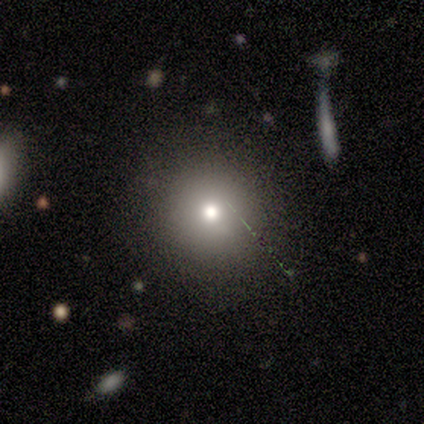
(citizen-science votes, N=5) smooth-or-featured: smooth: 80% | featured or disk: 20% | star or artifact: 0%
  how-rounded: round: 100% | in between: 0% | cigar-shaped: 0%
  merging: none: 80% | major disturbance: 20% | minor disturbance: 0% | merger: 0%